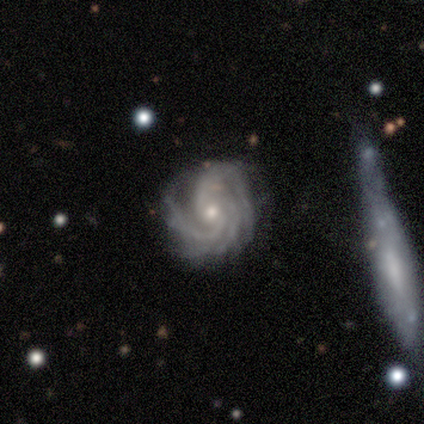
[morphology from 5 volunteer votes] A featured or disk galaxy (100%) with no bar (60%), 3 (80%) medium (60%) spiral arms (100%) and a small central bulge (60%).

Vote fractions:
- Smooth or featured? featured or disk: 100% / smooth: 0% / star or artifact: 0%
- Edge-on disk? no: 100% / yes: 0%
- Bar? no: 60% / weak: 40% / strong: 0%
- Spiral arms? yes: 100% / no: 0%
- Spiral winding? medium: 60% / tight: 40% / loose: 0%
- Spiral arm count? 3: 80% / 2: 20% / 1: 0% / 4: 0% / more than 4: 0% / can't tell: 0%
- Bulge size? small: 60% / moderate: 40% / dominant: 0% / large: 0% / none: 0%
- Merging? minor disturbance: 60% / none: 40% / major disturbance: 0% / merger: 0%